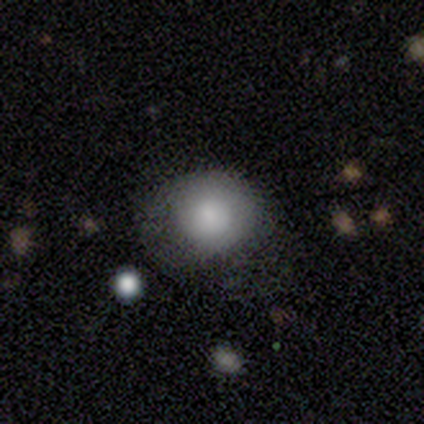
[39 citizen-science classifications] Volunteers were most divided on "merging": none: 49%, minor disturbance: 40%, major disturbance: 11%, merger: 0%. More confident: how rounded — round (84%); smooth or featured — smooth (79%).